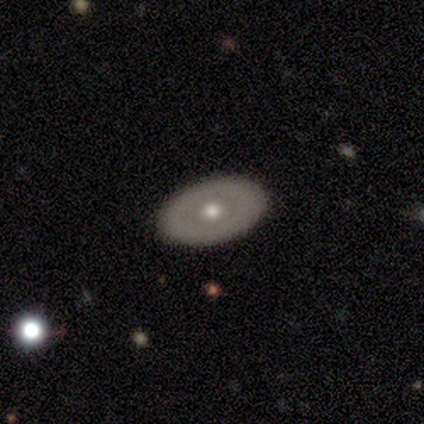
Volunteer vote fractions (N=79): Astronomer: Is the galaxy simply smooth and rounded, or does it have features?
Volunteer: featured or disk — 56% (runner-up: smooth, 43%).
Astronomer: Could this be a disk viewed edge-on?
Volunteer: no — 91%.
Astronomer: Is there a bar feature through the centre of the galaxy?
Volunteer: no — 95%.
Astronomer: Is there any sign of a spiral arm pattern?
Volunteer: no — 98%.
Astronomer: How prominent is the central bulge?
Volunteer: moderate — 85%.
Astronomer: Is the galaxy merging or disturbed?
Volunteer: none — 54%.